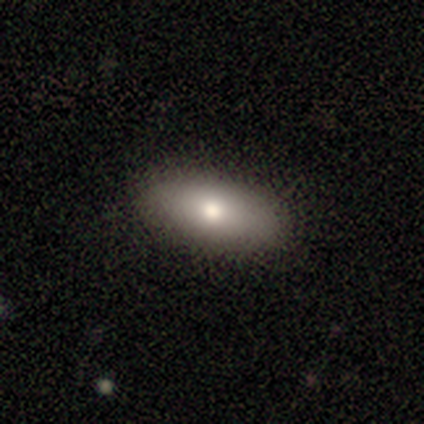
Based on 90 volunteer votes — Morphology: type=smooth (79%); roundness=in between (85%); merging=none (91%).